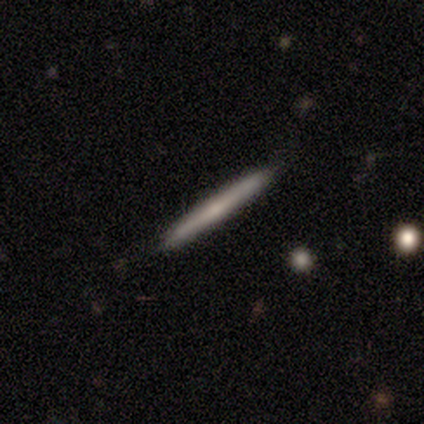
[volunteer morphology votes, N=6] smooth-or-featured: smooth: 67% | featured or disk: 33% | star or artifact: 0%
  how-rounded: cigar-shaped: 100% | round: 0% | in between: 0%
  merging: none: 100% | minor disturbance: 0% | major disturbance: 0% | merger: 0%